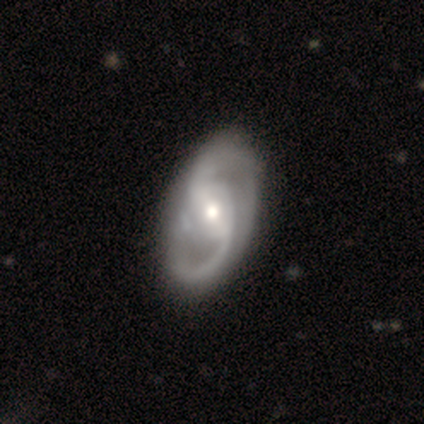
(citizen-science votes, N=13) This is clearly a featured or disk galaxy (92%). It is clearly not viewed edge-on (92%). Bar: possibly strong (45%). Spiral arm pattern: clearly yes (100%). Spiral arm count: likely 2 (73%). Spiral winding: possibly loose (45%). Central bulge: clearly moderate (82%). Merging: likely none (69%).